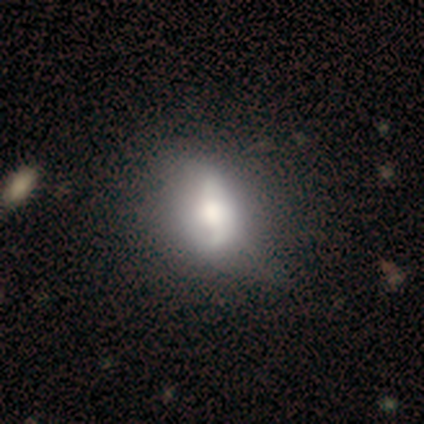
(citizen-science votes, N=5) Smooth or featured?
  - smooth: 40% * (tied)
  - featured or disk: 40% * (tied)
  - star or artifact: 20%
How rounded?
  - in between: 100% *
  - round: 0%
  - cigar-shaped: 0%
Merging?
  - major disturbance: 75% *
  - merger: 25%
  - none: 0%
  - minor disturbance: 0%